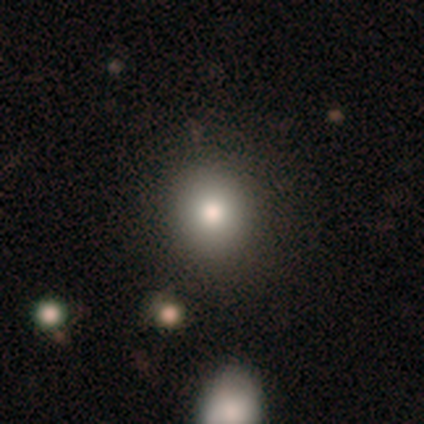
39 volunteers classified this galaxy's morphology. type=smooth (90%); roundness=round (91%); merging=none (68%).